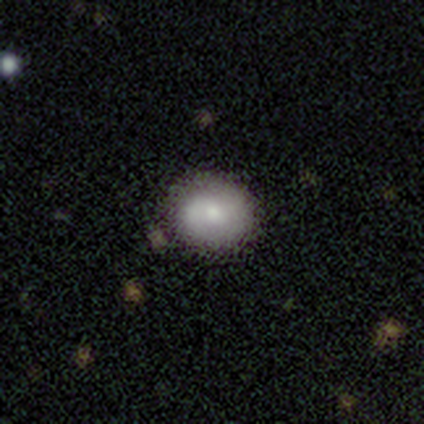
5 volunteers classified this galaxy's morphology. This is clearly a smooth galaxy (80%). How rounded: likely in between (75%). Merging: likely none (60%).